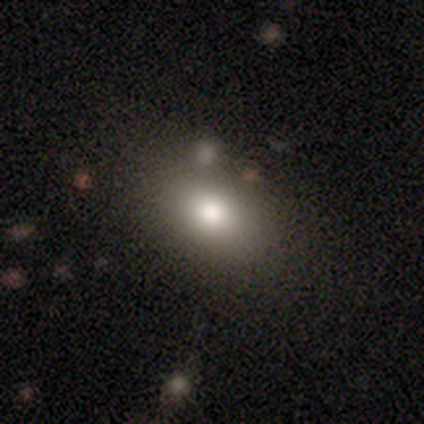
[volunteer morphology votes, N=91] type=smooth (78%); roundness=in between (72%); merging=none (85%).